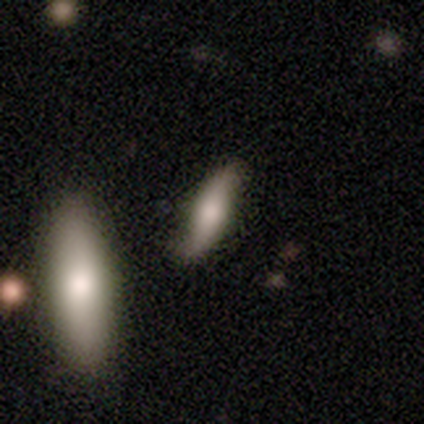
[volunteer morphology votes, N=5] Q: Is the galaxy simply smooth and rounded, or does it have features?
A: smooth — 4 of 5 (80%).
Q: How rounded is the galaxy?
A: in between — 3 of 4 (75%).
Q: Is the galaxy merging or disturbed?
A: none — 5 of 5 (100%).